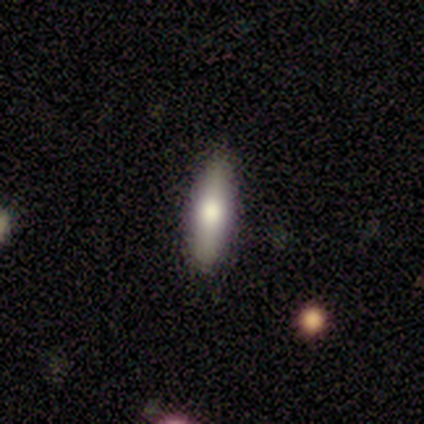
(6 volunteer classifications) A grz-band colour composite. It shows a smooth galaxy with no disk features (83%) that is in between round and cigar-shaped (60%). Merging: none (100%).